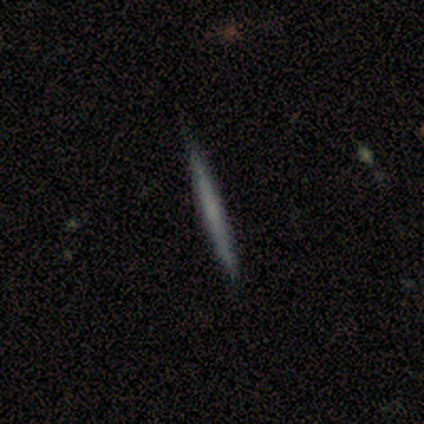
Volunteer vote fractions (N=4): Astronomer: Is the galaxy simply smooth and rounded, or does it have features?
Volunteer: smooth — 50%, tied with featured or disk at 50%.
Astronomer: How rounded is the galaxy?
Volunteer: cigar-shaped — 100%.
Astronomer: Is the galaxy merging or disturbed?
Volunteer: none — 75%.